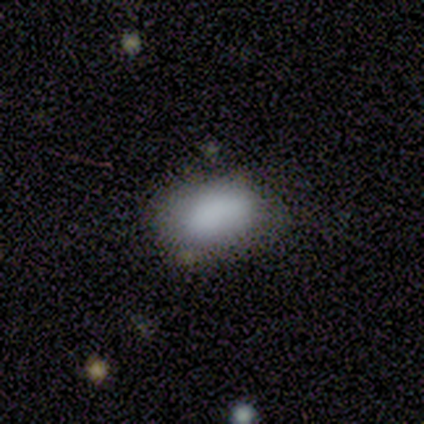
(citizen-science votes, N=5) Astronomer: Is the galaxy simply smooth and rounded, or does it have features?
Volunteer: smooth — 100%.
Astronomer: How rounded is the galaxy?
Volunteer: in between — 100%.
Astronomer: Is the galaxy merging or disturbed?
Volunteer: none — 80%.